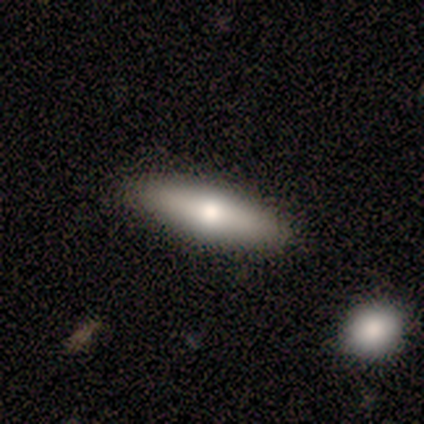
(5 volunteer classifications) This appears to be a smooth galaxy with no disk features (60%) that is in between round and cigar-shaped (100%). Merging: none (100%).